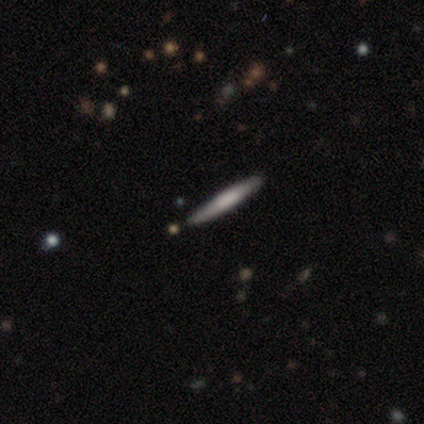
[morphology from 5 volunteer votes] Overall: smooth (60%; featured or disk 40%). How rounded: cigar-shaped (100%). Merging: none (80%).